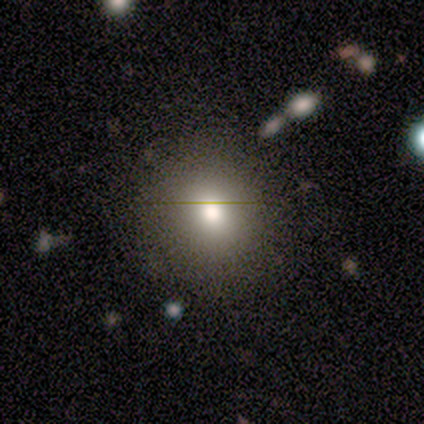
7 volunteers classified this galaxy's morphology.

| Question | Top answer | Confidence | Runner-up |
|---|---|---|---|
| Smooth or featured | smooth | 100% | — |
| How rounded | round | 71% | in between (29%) |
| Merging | none | 100% | — |